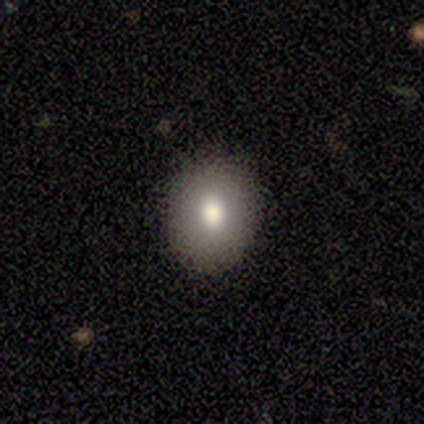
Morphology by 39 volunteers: Smooth or featured? 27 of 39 (69%) said smooth. How rounded? 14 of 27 (52%) said in between. Merging? 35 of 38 (92%) said none.